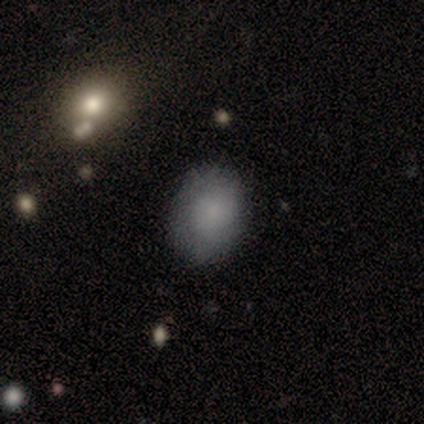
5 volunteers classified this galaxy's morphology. smooth_or_featured: smooth (p=0.60) [alt: featured or disk p=0.20]
how_rounded: in between (p=1.00)
merging: none (p=0.75) [alt: minor disturbance p=0.25]